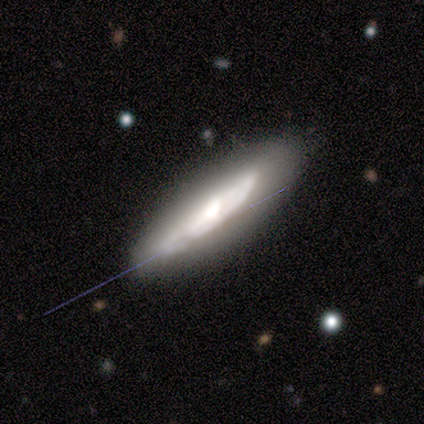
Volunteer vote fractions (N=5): smooth-or-featured: smooth: 60% | featured or disk: 20% | star or artifact: 20%
  how-rounded: cigar-shaped: 67% | in between: 33% | round: 0%
  merging: none: 100% | minor disturbance: 0% | major disturbance: 0% | merger: 0%